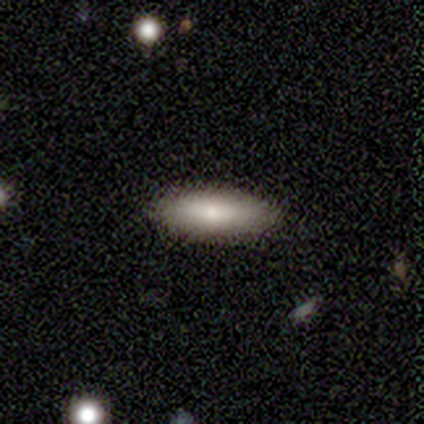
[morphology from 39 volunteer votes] type=smooth (82%); roundness=in between (53%); merging=none (83%).